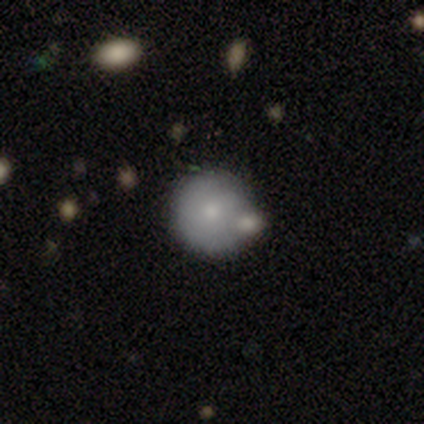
Smooth or featured? 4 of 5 (80%) said smooth. How rounded? 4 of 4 (100%) said round. Merging? 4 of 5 (80%) said merger.